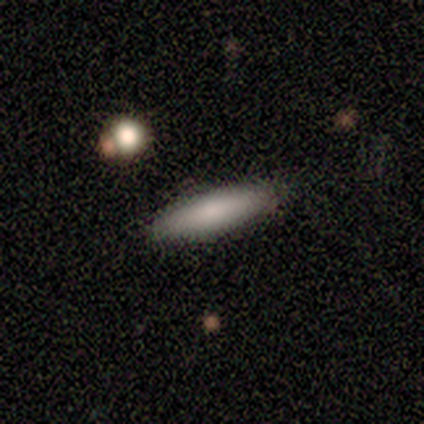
Smooth or featured: smooth — 60% (featured or disk — 40%)
How rounded: cigar-shaped — 100%
Merging: none — 80% (major disturbance — 20%)